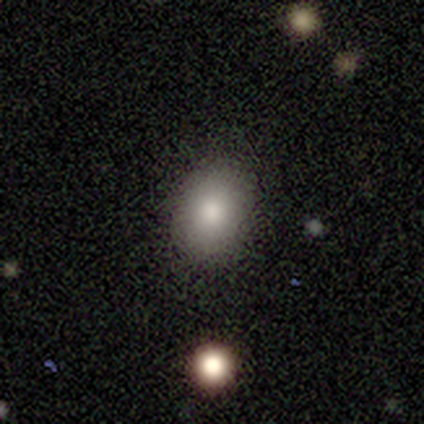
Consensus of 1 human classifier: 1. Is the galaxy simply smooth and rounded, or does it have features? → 100% smooth, 0% featured or disk, 0% star or artifact.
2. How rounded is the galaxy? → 100% in between, 0% round, 0% cigar-shaped.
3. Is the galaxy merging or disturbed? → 100% none, 0% minor disturbance, 0% major disturbance, 0% merger.